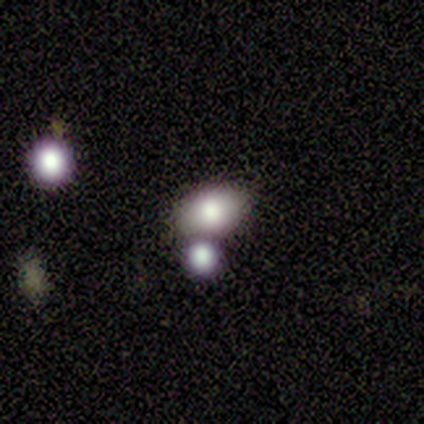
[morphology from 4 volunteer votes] Overall: smooth (50%; featured or disk 25%). How rounded: in between (100%). Merging: merger (67%; minor disturbance 33%).